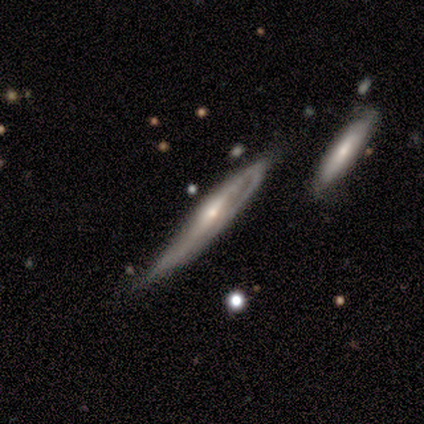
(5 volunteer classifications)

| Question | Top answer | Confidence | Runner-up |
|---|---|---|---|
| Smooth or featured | smooth | 60% | featured or disk (40%) |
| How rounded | cigar-shaped | 100% | — |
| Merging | minor disturbance | 40% | none (20%) |